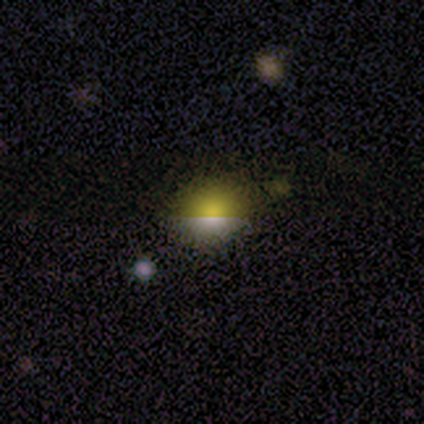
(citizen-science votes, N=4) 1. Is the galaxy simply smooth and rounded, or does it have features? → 75% smooth, 25% star or artifact, 0% featured or disk.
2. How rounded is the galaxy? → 100% round, 0% in between, 0% cigar-shaped.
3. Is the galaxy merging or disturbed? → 67% none, 33% minor disturbance, 0% major disturbance, 0% merger.